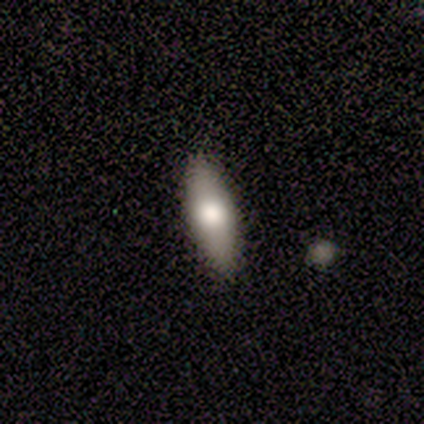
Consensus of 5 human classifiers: A smooth galaxy with no disk features (60%) that is in between round and cigar-shaped (67%).

Vote fractions:
- Smooth or featured? smooth: 60% / star or artifact: 40% / featured or disk: 0%
- How rounded? in between: 67% / cigar-shaped: 33% / round: 0%
- Merging? none: 100% / minor disturbance: 0% / major disturbance: 0% / merger: 0%